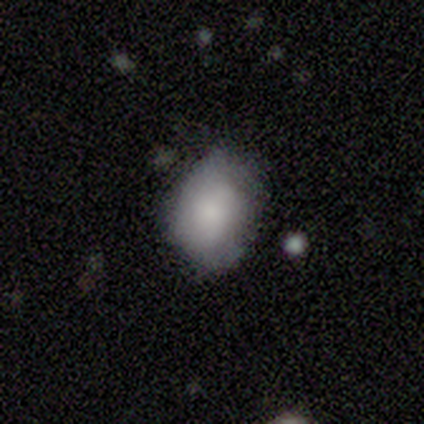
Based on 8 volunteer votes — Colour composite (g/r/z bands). It shows a smooth galaxy with no disk features (88%) that is in between round and cigar-shaped (57%). Merging: none (50%, tied with minor disturbance).